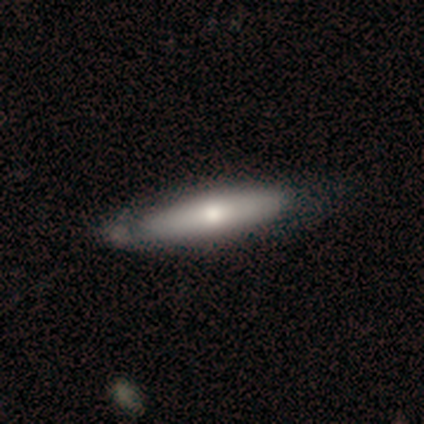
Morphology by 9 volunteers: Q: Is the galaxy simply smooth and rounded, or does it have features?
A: smooth — 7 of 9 (78%).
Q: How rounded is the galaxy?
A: cigar-shaped — 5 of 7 (71%).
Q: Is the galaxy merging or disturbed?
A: none — 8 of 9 (89%).